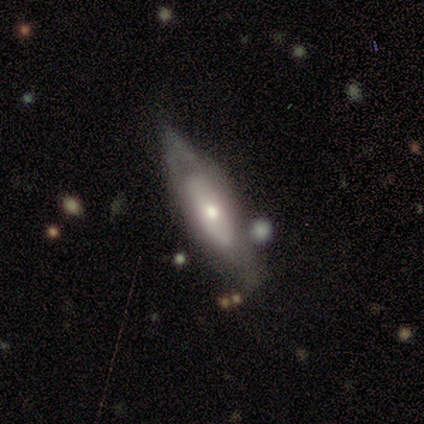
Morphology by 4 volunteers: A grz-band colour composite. It shows a smooth galaxy with no disk features (50%) that is cigar-shaped (100%). Merging: none (67%).